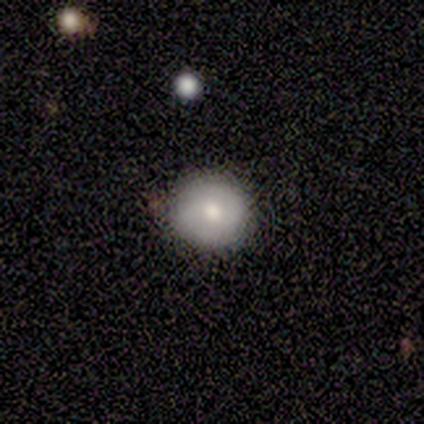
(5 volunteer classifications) Overall: smooth (100%). How rounded: round (100%). Merging: none (80%).